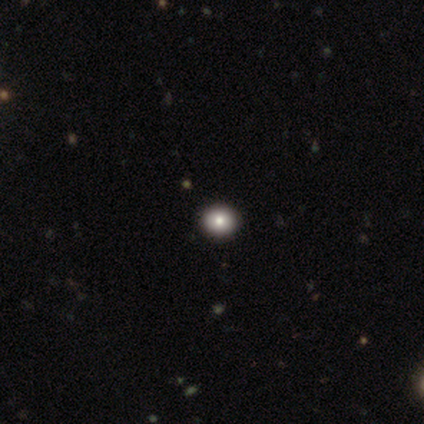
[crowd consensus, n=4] Smooth or featured?
  - smooth: 75% *
  - star or artifact: 25%
  - featured or disk: 0%
How rounded?
  - round: 100% *
  - in between: 0%
  - cigar-shaped: 0%
Merging?
  - none: 100% *
  - minor disturbance: 0%
  - major disturbance: 0%
  - merger: 0%